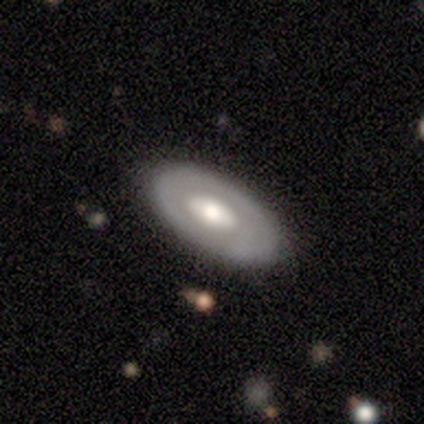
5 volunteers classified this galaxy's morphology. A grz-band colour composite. It shows a featured or disk galaxy (80%) with no bar (75%), no spiral arms (100%) and a moderate central bulge (75%). Merging: none (100%).